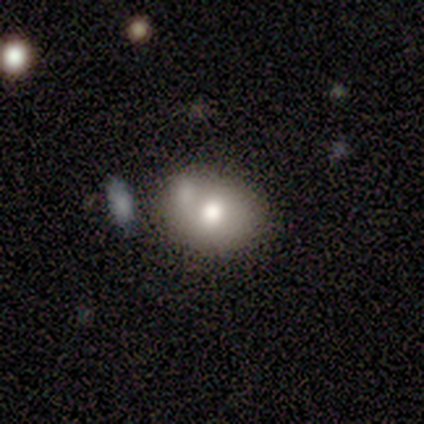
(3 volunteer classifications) Smooth or featured: featured or disk — 67% (smooth — 33%)
Edge-on disk: no — 100%
Bar: no — 100%
Spiral arms: no — 100%
Bulge size: moderate — 50% (tied with none — 50%)
Merging: none — 100%